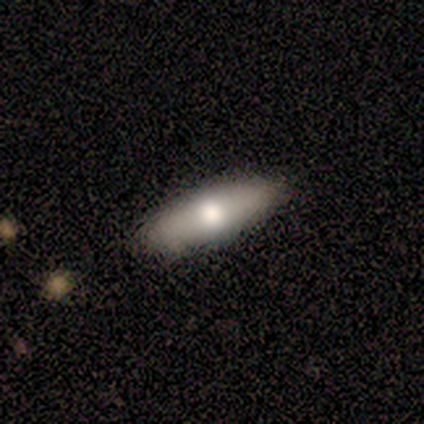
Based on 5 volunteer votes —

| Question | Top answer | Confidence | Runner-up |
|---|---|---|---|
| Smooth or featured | smooth | 60% | featured or disk (40%) |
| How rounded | cigar-shaped | 67% | in between (33%) |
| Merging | none | 100% | — |